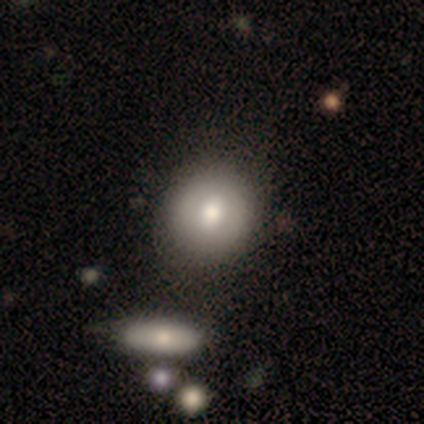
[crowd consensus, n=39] This is likely a smooth galaxy (69%). How rounded: clearly round (93%). Merging: likely none (62%).